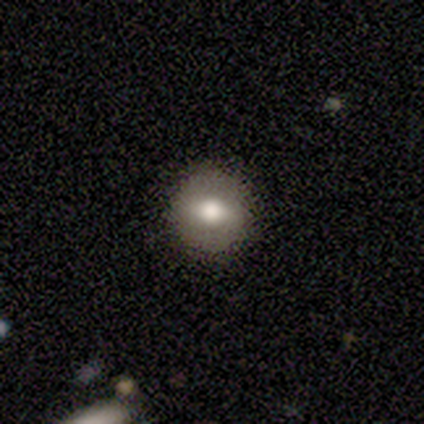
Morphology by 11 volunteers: smooth 45% (tied), featured or disk 45% (tied), star or artifact 9%. Down the decision tree: how rounded — round (100%); merging — none (90%).